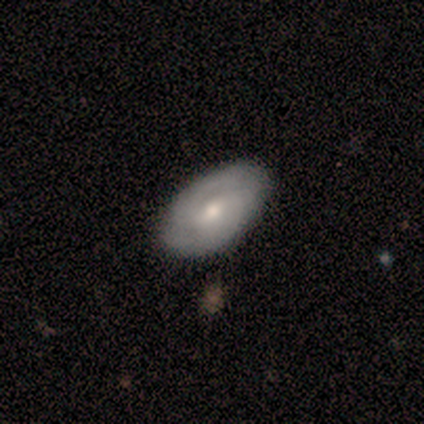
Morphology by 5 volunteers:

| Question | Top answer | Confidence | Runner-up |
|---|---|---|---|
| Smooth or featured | smooth | 40% | tied: star or artifact (40%) |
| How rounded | in between | 100% | — |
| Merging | none | 100% | — |